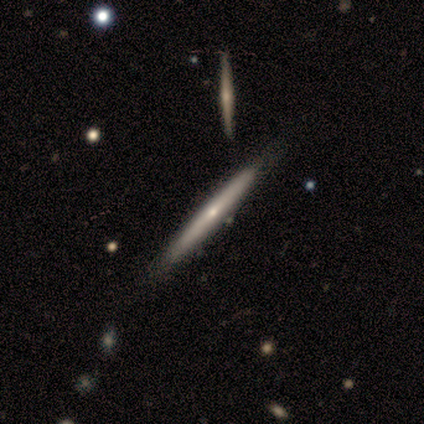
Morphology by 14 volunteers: Volunteers were most divided on "smooth or featured": featured or disk: 57%, smooth: 36%, star or artifact: 7%. More confident: edge-on disk — yes (100%); merging — none (77%); edge-on bulge — none (75%).